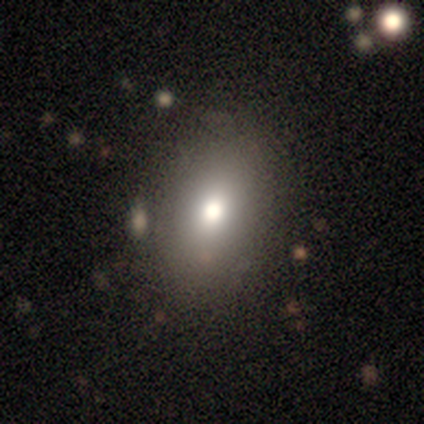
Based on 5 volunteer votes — Overall: smooth (80%). How rounded: in between (75%). Merging: none (60%; minor disturbance 20%).